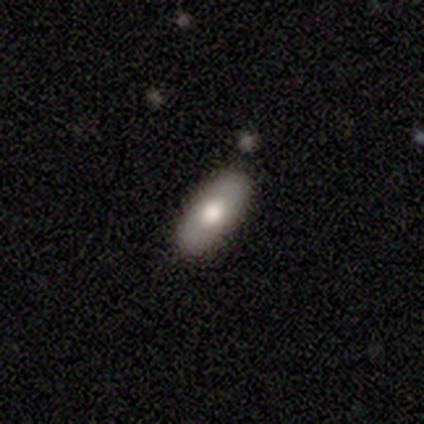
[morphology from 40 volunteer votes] smooth_or_featured: smooth (p=0.62) [alt: featured or disk p=0.30]
how_rounded: in between (p=0.96) [alt: round p=0.04]
merging: none (p=0.95) [alt: minor disturbance p=0.05]